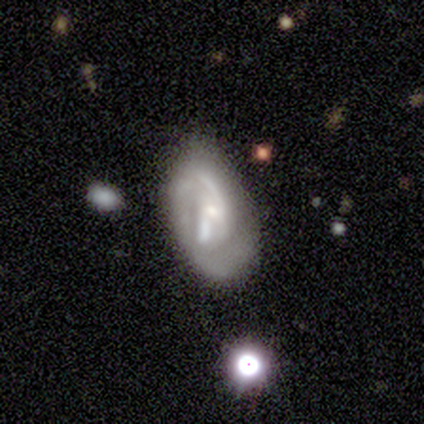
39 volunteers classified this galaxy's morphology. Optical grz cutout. It shows a featured or disk galaxy (82%) with a weak bar (59%), 2 (52%) tight (52%) spiral arms (72%) and a small central bulge (59%). Merging: none (54%).